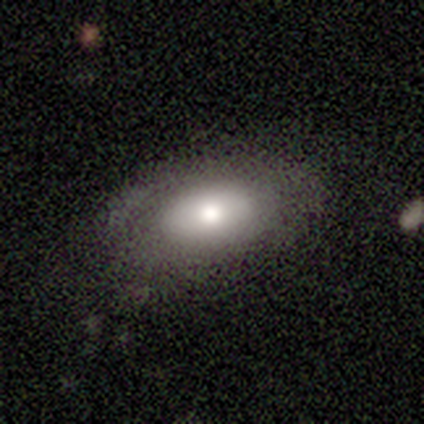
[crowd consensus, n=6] Morphology: type=smooth (67%); roundness=in between (100%); merging=none (40%, tied with major disturbance).